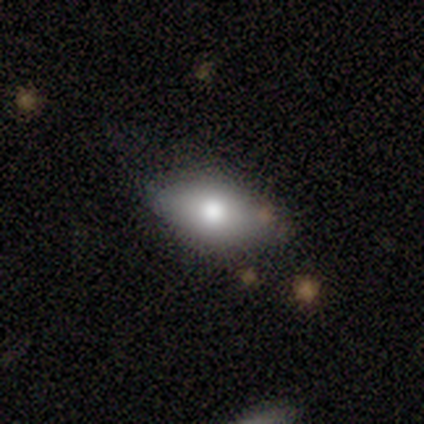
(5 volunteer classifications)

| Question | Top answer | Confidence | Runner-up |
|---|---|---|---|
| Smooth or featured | smooth | 80% | featured or disk (20%) |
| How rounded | in between | 100% | — |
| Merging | none | 80% | major disturbance (20%) |